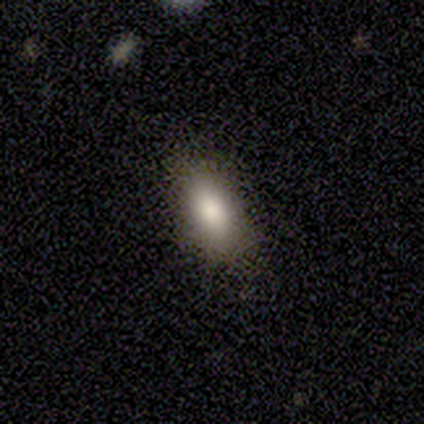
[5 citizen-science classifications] This appears to be a smooth galaxy with no disk features (60%) that is in between round and cigar-shaped (100%). Merging: none (75%).